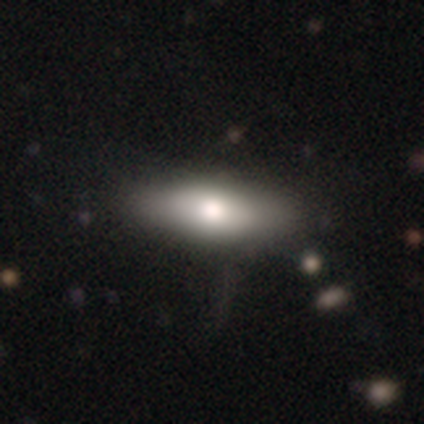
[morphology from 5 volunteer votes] smooth 80%, featured or disk 20%, star or artifact 0%. Down the decision tree: how rounded — in between (75%); merging — none (100%).